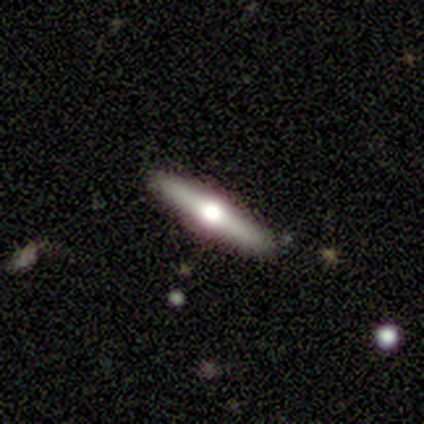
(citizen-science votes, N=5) Smooth or featured?
  - featured or disk: 100% *
  - smooth: 0%
  - star or artifact: 0%
Edge-on disk?
  - yes: 100% *
  - no: 0%
Edge-on bulge?
  - rounded: 100% *
  - boxy: 0%
  - none: 0%
Merging?
  - none: 100% *
  - minor disturbance: 0%
  - major disturbance: 0%
  - merger: 0%